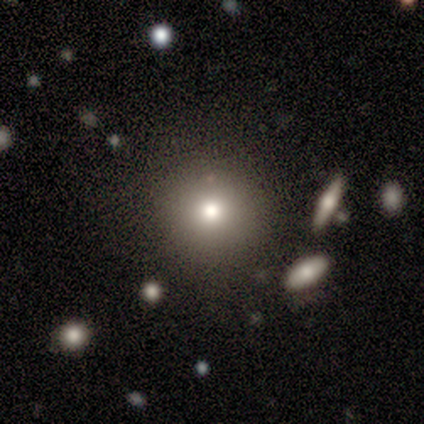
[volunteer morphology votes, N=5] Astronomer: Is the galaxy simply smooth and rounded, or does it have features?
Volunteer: smooth — 100%.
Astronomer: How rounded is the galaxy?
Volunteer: round — 100%.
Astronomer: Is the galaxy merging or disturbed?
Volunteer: none — 100%.